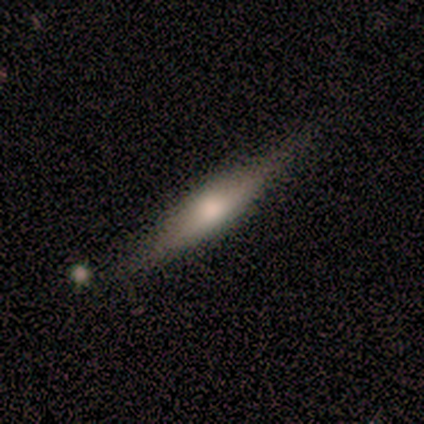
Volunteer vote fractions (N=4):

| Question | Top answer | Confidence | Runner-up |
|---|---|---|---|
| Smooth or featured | featured or disk | 75% | smooth (25%) |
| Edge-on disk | yes | 100% | — |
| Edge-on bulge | rounded | 100% | — |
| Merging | none | 100% | — |